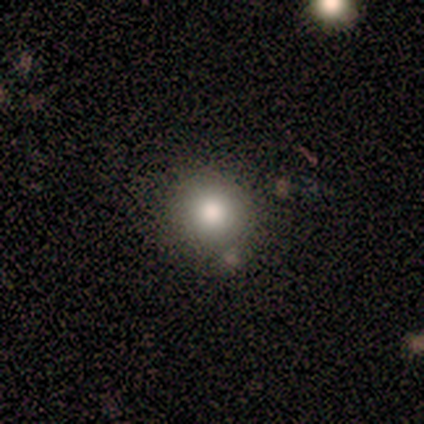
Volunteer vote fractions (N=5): star or artifact 60%, smooth 20%, featured or disk 20%.